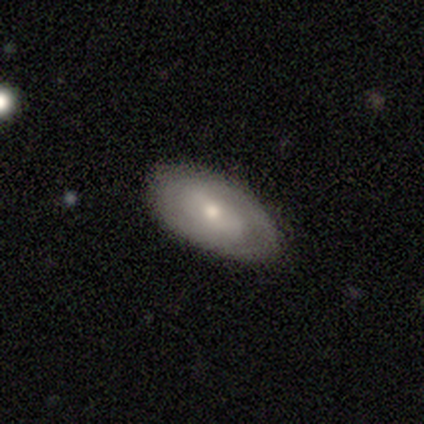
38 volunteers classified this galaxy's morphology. This appears to be a smooth galaxy with no disk features (53%) that is in between round and cigar-shaped (85%). Merging: none (65%).